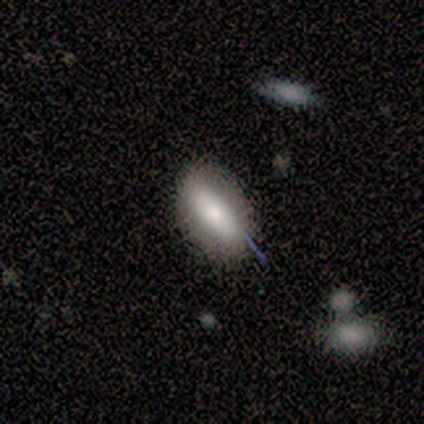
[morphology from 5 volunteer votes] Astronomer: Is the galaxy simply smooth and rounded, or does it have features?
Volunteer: smooth — 80%.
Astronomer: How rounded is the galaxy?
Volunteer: in between — 100%.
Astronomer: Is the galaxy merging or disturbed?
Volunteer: none — 80%.